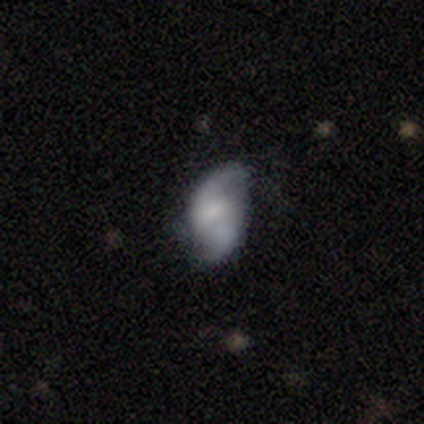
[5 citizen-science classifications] smooth 60%, featured or disk 20%, star or artifact 20%. Down the decision tree: how rounded — in between (67%); merging — none (50%, tied with major disturbance).